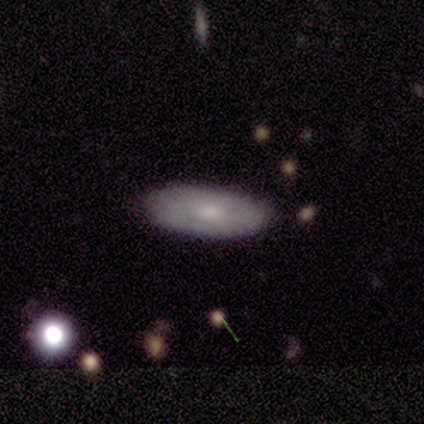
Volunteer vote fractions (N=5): This appears to be a featured or disk galaxy (80%) with no bar (67%), no spiral arms (67%) and a moderate central bulge (100%). Merging: none (75%).